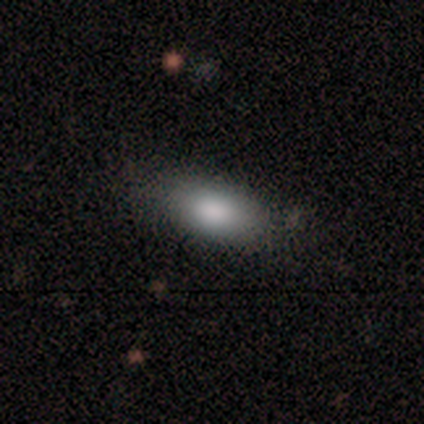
smooth_or_featured: smooth (p=0.83) [alt: featured or disk p=0.12]
how_rounded: in between (p=0.90) [alt: cigar-shaped p=0.10]
merging: none (p=0.79) [alt: minor disturbance p=0.14]